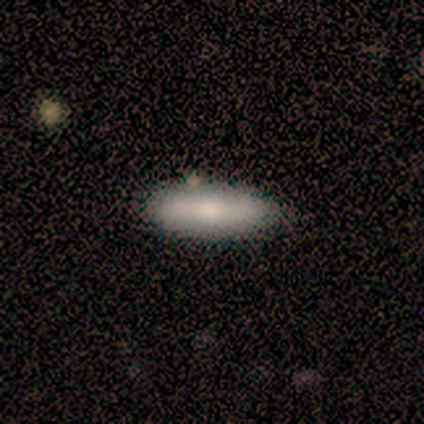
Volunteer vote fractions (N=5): Smooth or featured?
  - smooth: 100% *
  - featured or disk: 0%
  - star or artifact: 0%
How rounded?
  - cigar-shaped: 60% *
  - in between: 40%
  - round: 0%
Merging?
  - none: 100% *
  - minor disturbance: 0%
  - major disturbance: 0%
  - merger: 0%